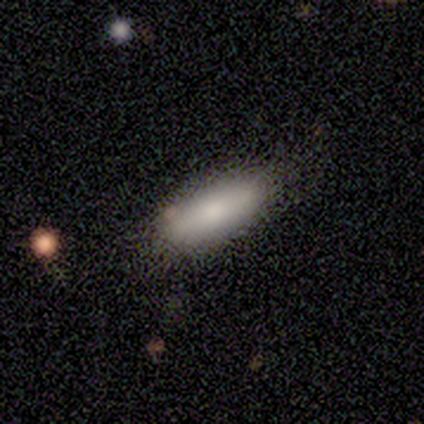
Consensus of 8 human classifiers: smooth_or_featured: smooth (p=0.75) [alt: featured or disk p=0.25]
how_rounded: in between (p=0.67) [alt: cigar-shaped p=0.33]
merging: none (p=0.62) [alt: minor disturbance p=0.38]